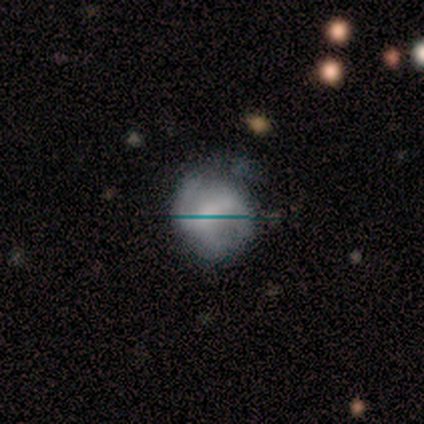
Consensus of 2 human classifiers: smooth_or_featured: featured or disk (p=1.00)
disk_edge_on: no (p=1.00)
bar: strong (p=0.50) [tied with: weak p=0.50]
has_spiral_arms: yes (p=1.00)
spiral_winding: tight (p=0.50) [tied with: loose p=0.50]
spiral_arm_count: 2 (p=1.00)
bulge_size: large (p=0.50) [tied with: moderate p=0.50]
merging: none (p=0.50) [tied with: minor disturbance p=0.50]